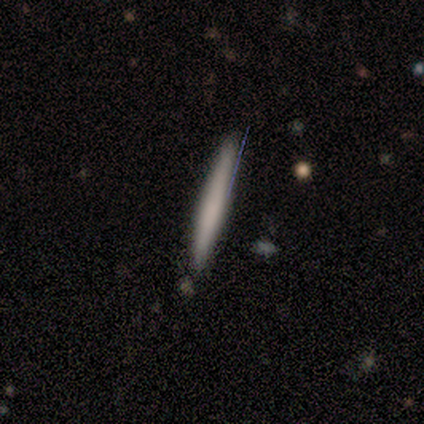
Volunteers were most divided on "smooth or featured": smooth: 60%, featured or disk: 40%, star or artifact: 0%. More confident: how rounded — cigar-shaped (100%); merging — none (100%).